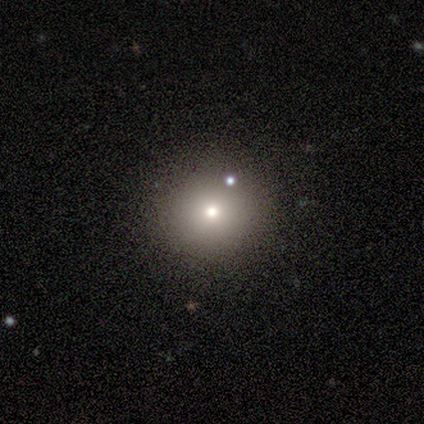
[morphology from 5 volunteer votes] This appears to be a smooth galaxy with no disk features (80%) that is round (100%). Merging: none (75%).